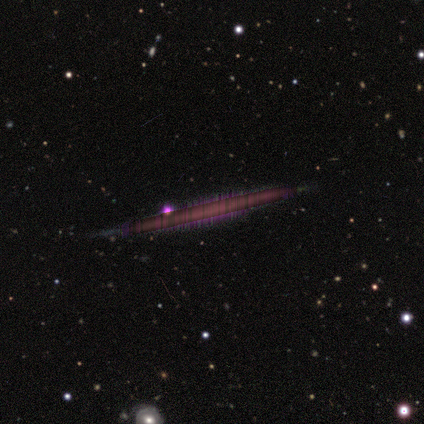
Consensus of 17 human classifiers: Volunteers were most divided on "smooth or featured": featured or disk: 53%, star or artifact: 35%, smooth: 12%. More confident: merging — none (91%); edge-on bulge — none (86%); edge-on disk — yes (78%).